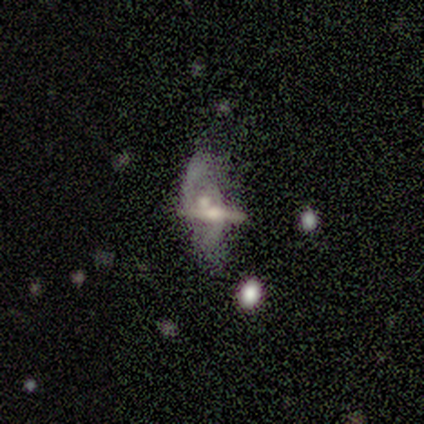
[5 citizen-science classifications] Smooth or featured?
  - featured or disk: 100% *
  - smooth: 0%
  - star or artifact: 0%
Edge-on disk?
  - no: 80% *
  - yes: 20%
Bar?
  - weak: 50% * (tied)
  - no: 50% * (tied)
  - strong: 0%
Spiral arms?
  - no: 75% *
  - yes: 25%
Bulge size?
  - small: 50% *
  - large: 25%
  - moderate: 25%
  - dominant: 0%
  - none: 0%
Merging?
  - major disturbance: 40% * (tied)
  - merger: 40% * (tied)
  - none: 20%
  - minor disturbance: 0%